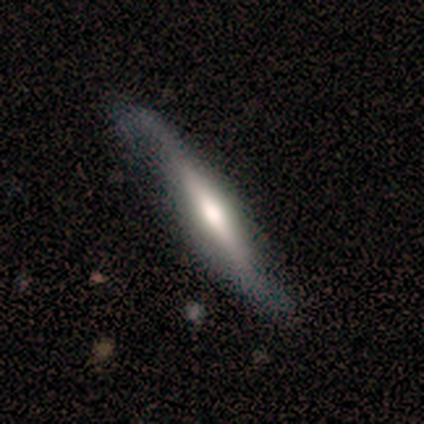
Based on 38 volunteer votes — Q: Smooth or featured?
A: featured or disk (74%); runner-up: smooth (26%)
Q: Edge-on disk?
A: yes (82%); runner-up: no (18%)
Q: Edge-on bulge?
A: rounded (74%); runner-up: none (22%)
Q: Merging?
A: none (55%); runner-up: minor disturbance (26%)